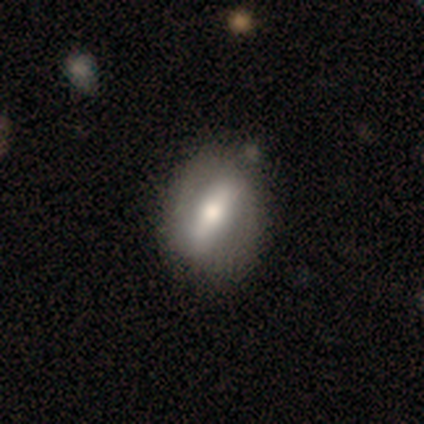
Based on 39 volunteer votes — A featured or disk galaxy (69%) with a strong bar (88%), no spiral arms (83%) and a moderate central bulge (62%).

Vote fractions:
- Smooth or featured? featured or disk: 69% / smooth: 31% / star or artifact: 0%
- Edge-on disk? no: 89% / yes: 11%
- Bar? strong: 88% / weak: 8% / no: 4%
- Spiral arms? no: 83% / yes: 17%
- Bulge size? moderate: 62% / small: 17% / large: 12% / dominant: 8% / none: 0%
- Merging? none: 62% / minor disturbance: 15% / merger: 8% / major disturbance: 0%